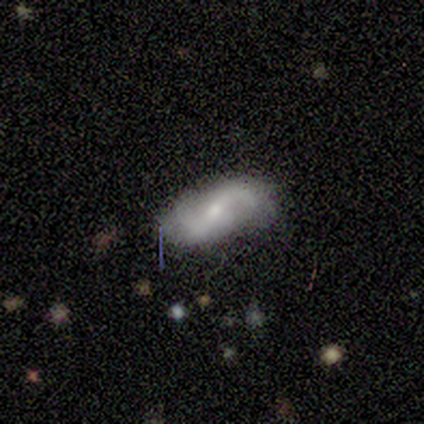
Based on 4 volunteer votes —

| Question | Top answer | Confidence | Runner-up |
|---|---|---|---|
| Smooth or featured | smooth | 50% | tied: featured or disk (50%) |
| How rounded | in between | 100% | — |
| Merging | none | 75% | minor disturbance (25%) |